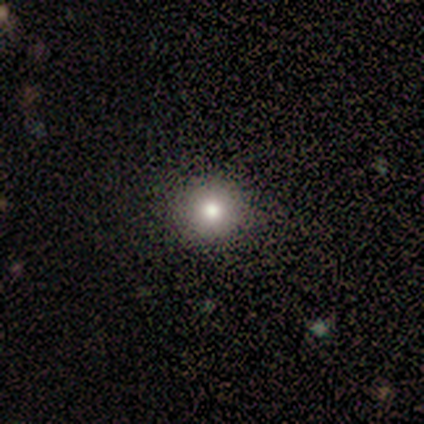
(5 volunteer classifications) Overall: smooth (100%). How rounded: round (100%). Merging: none (100%).